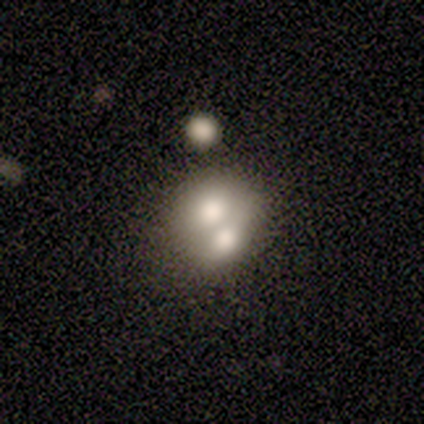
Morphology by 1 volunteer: smooth-or-featured: smooth: 100% | featured or disk: 0% | star or artifact: 0%
  how-rounded: round: 100% | in between: 0% | cigar-shaped: 0%
  merging: merger: 100% | none: 0% | minor disturbance: 0% | major disturbance: 0%